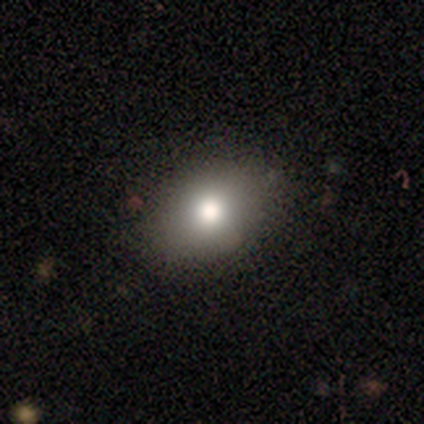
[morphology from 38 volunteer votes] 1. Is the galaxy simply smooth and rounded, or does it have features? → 79% smooth, 13% star or artifact, 8% featured or disk.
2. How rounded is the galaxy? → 73% in between, 27% round, 0% cigar-shaped.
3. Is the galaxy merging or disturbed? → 85% none, 12% major disturbance, 3% minor disturbance, 0% merger.